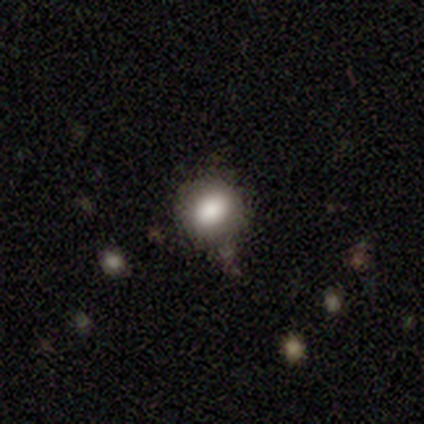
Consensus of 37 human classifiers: smooth-or-featured: smooth: 65% | featured or disk: 22% | star or artifact: 14%
  how-rounded: round: 75% | in between: 25% | cigar-shaped: 0%
  merging: none: 62% | minor disturbance: 25% | major disturbance: 6% | merger: 6%